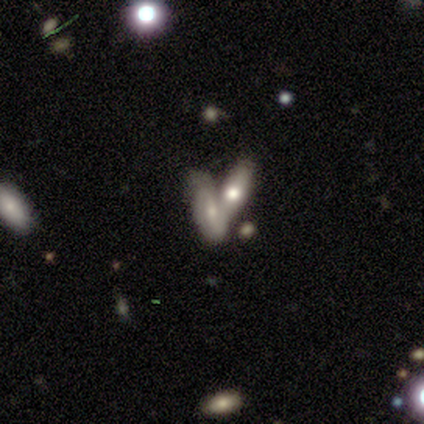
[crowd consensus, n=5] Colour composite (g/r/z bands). It shows a smooth galaxy with no disk features (60%) that is in between round and cigar-shaped (67%). Merging: merger (80%).